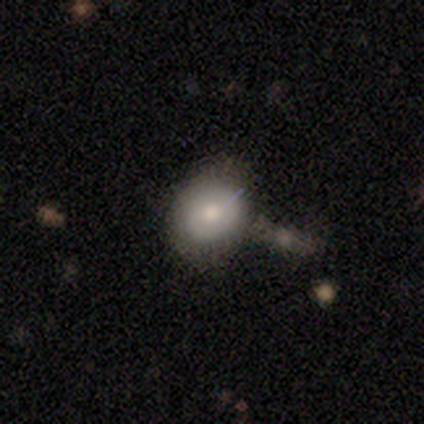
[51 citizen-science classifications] Smooth or featured?
  - smooth: 65% *
  - featured or disk: 22%
  - star or artifact: 14%
How rounded?
  - round: 58% *
  - in between: 39%
  - cigar-shaped: 3%
Merging?
  - none: 75% *
  - minor disturbance: 16%
  - major disturbance: 5%
  - merger: 5%